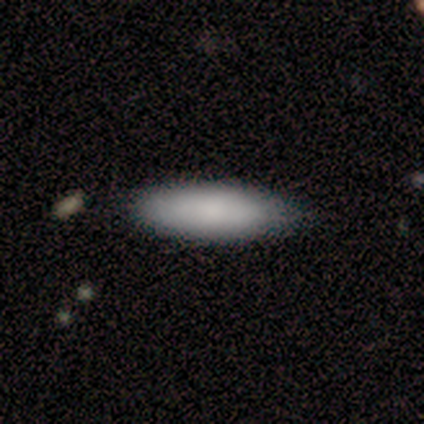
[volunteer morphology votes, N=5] Smooth or featured? 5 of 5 (100%) said smooth. How rounded? 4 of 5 (80%) said cigar-shaped. Merging? 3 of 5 (60%) said none.